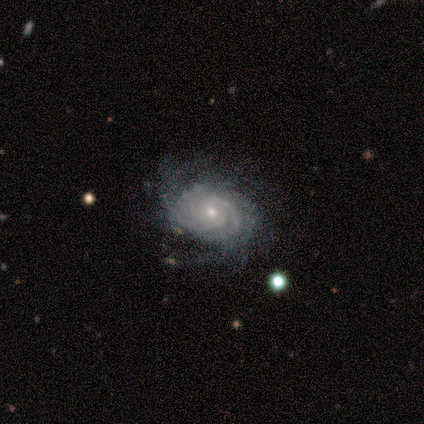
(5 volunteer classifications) Smooth or featured: featured or disk — 100%
Edge-on disk: no — 100%
Bar: no — 80% (weak — 20%)
Spiral arms: yes — 100%
Spiral winding: tight — 100%
Spiral arm count: can't tell — 80% (3 — 20%)
Bulge size: small — 60% (large — 20%)
Merging: minor disturbance — 60% (none — 40%)